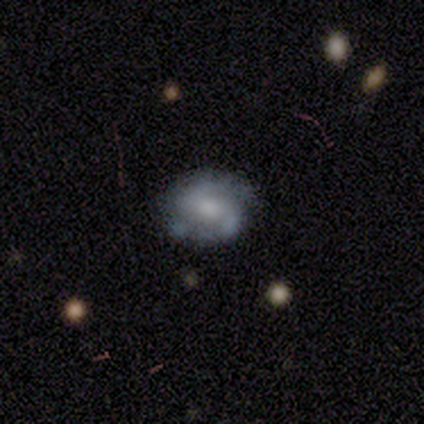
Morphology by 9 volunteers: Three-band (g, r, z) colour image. It shows a featured or disk galaxy (67%) with a weak bar (50%), 2 (83%) medium (50%) spiral arms (100%) and a moderate central bulge (67%). Merging: none (67%).